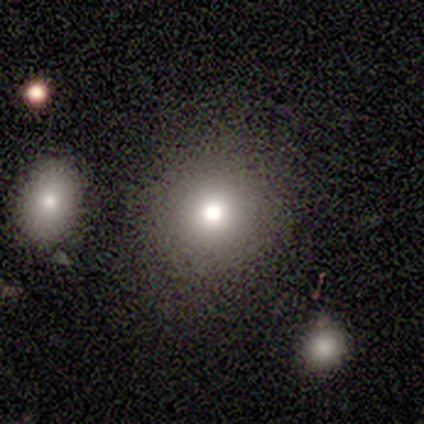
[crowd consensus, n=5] A smooth galaxy with no disk features (80%) that is round (100%). Merging: none (80%).